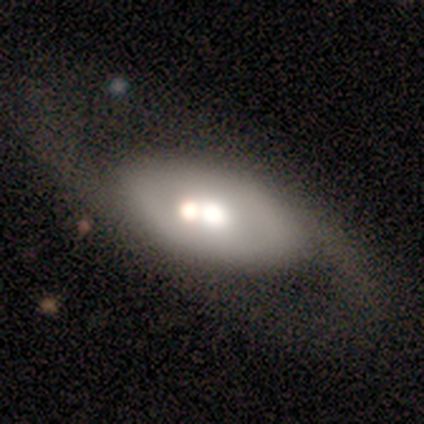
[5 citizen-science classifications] Smooth or featured? 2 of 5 (40%, tied with featured or disk) said smooth. How rounded? 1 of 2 (50%, tied with in between) said round. Merging? 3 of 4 (75%) said merger.